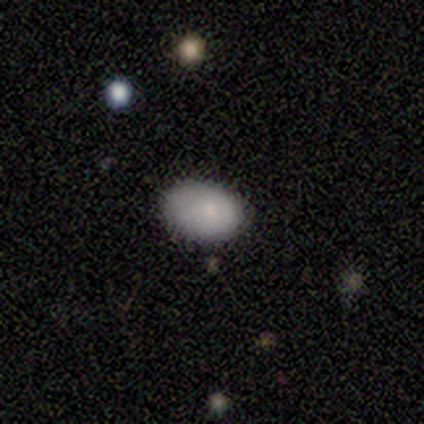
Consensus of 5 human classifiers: This is clearly a smooth galaxy (100%). How rounded: clearly in between (80%). Merging: likely none (60%).